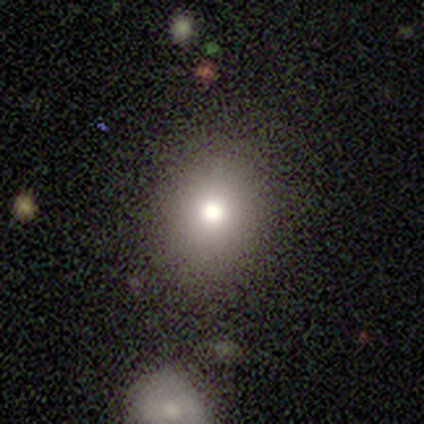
Overall: smooth (80%). How rounded: round (75%). Merging: none (80%).